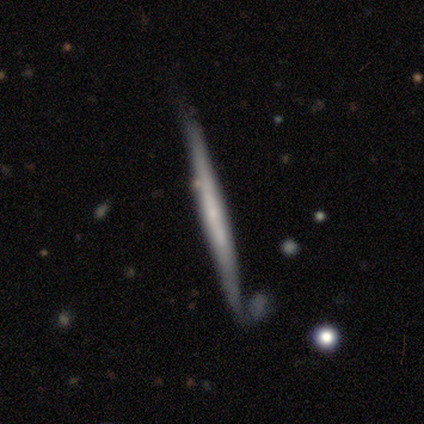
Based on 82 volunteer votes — Smooth or featured? featured or disk (62%)
Edge-on disk? yes (100%)
Edge-on bulge? none (75%)
Merging? none (76%)